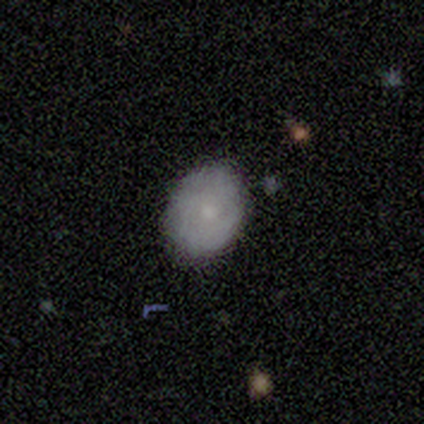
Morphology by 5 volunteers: This appears to be a featured or disk galaxy (60%) with no bar (100%), no spiral arms (100%) and a small central bulge (100%). Merging: none (100%).